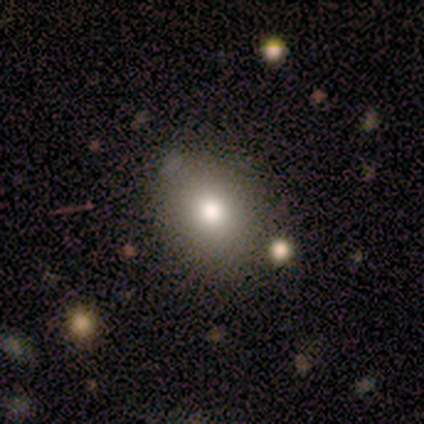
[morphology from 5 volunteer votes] Smooth or featured? smooth (80%)
How rounded? in between (75%)
Merging? none (50%, tied with minor disturbance)